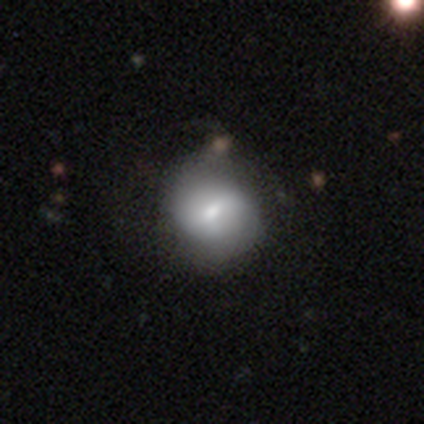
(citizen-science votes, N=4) Smooth or featured: smooth — 50% (tied with featured or disk — 50%)
How rounded: round — 50% (tied with in between — 50%)
Merging: none — 100%